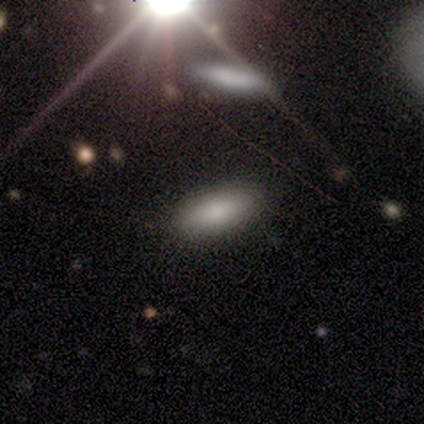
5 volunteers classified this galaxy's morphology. featured or disk 40% (tied), star or artifact 40% (tied), smooth 20%. Down the decision tree: edge-on disk — no (100%); bar — no (100%); spiral arms — no (100%); bulge size — dominant (50%, tied with large); merging — none (33%, tied with minor disturbance and major disturbance).